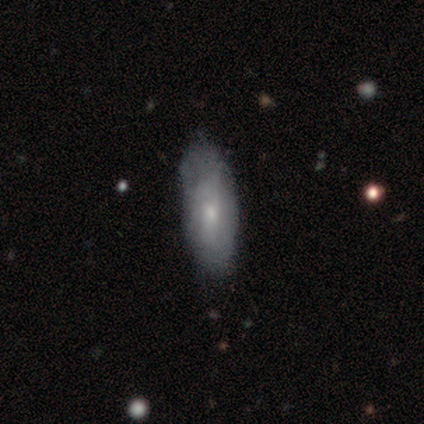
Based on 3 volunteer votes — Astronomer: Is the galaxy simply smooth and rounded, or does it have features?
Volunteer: smooth — 33%, tied with featured or disk and star or artifact at 33%.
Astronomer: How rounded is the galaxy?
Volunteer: in between — 100%.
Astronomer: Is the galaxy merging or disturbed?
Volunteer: none — 100%.